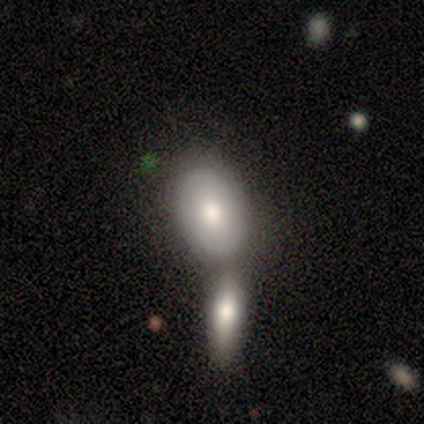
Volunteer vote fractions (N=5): Smooth or featured? 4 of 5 (80%) said smooth. How rounded? 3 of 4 (75%) said in between. Merging? 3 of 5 (60%) said merger.